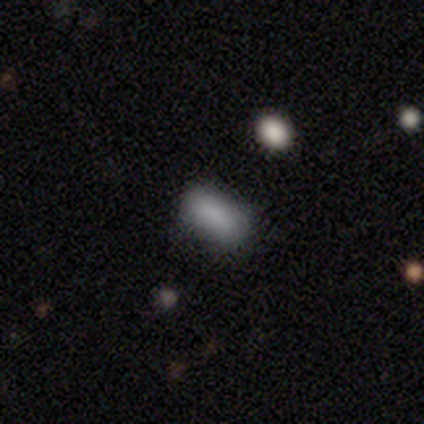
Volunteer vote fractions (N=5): This appears to be a smooth galaxy with no disk features (100%) that is in between round and cigar-shaped (100%). Merging: none (60%).